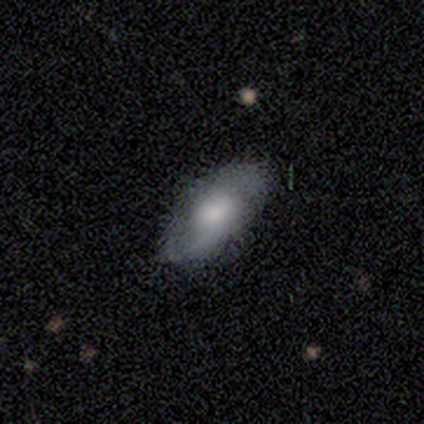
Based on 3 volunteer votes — smooth_or_featured: featured or disk (p=0.67) [alt: smooth p=0.33]
disk_edge_on: no (p=1.00)
bar: weak (p=0.50) [tied with: no p=0.50]
has_spiral_arms: no (p=1.00)
bulge_size: large (p=0.50) [tied with: small p=0.50]
merging: none (p=0.33) [tied with: minor disturbance p=0.33, major disturbance p=0.33]